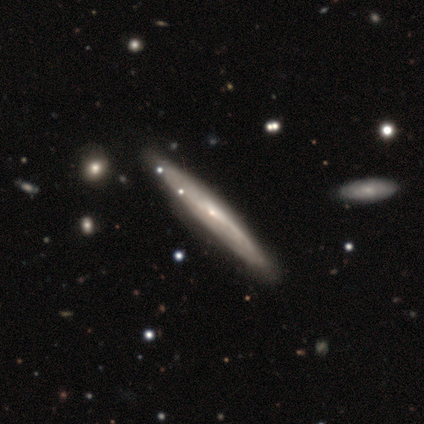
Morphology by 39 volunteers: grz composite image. It shows a featured or disk galaxy (59%) viewed edge-on (78%) with no central bulge (67%). Merging: none (89%).